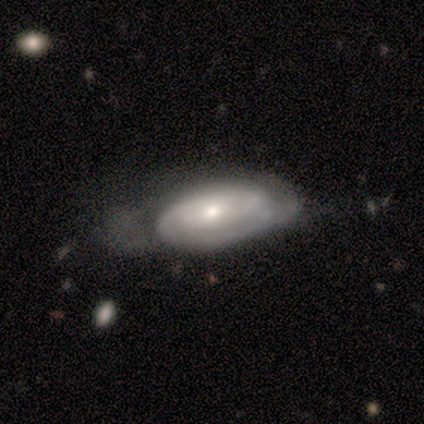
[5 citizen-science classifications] smooth_or_featured: featured or disk (p=1.00)
disk_edge_on: no (p=1.00)
bar: no (p=0.80) [alt: weak p=0.20]
has_spiral_arms: yes (p=0.80) [alt: no p=0.20]
spiral_winding: tight (p=0.75) [alt: medium p=0.25]
spiral_arm_count: can't tell (p=0.75) [alt: 2 p=0.25]
bulge_size: small (p=1.00)
merging: minor disturbance (p=0.60) [alt: none p=0.20]